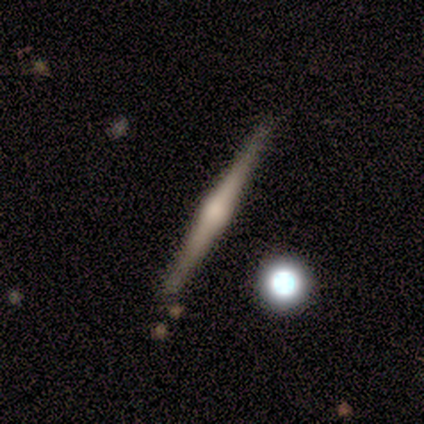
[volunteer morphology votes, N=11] This appears to be a featured or disk galaxy (91%) viewed edge-on (100%) with a rounded central bulge (100%). Merging: none (91%).